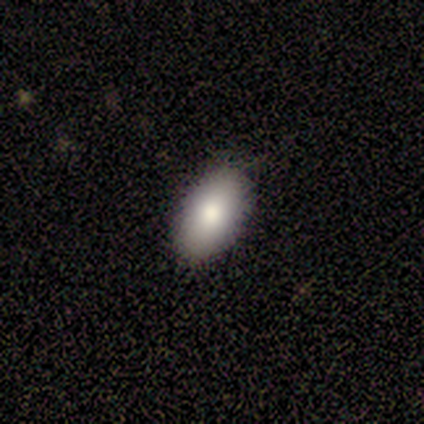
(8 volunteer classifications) Overall: smooth (100%). How rounded: in between (100%). Merging: none (100%).